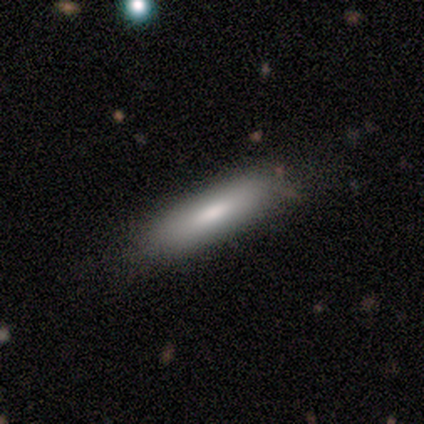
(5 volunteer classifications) smooth_or_featured: smooth (p=0.80) [alt: featured or disk p=0.20]
how_rounded: cigar-shaped (p=0.75) [alt: in between p=0.25]
merging: minor disturbance (p=0.80) [alt: none p=0.20]